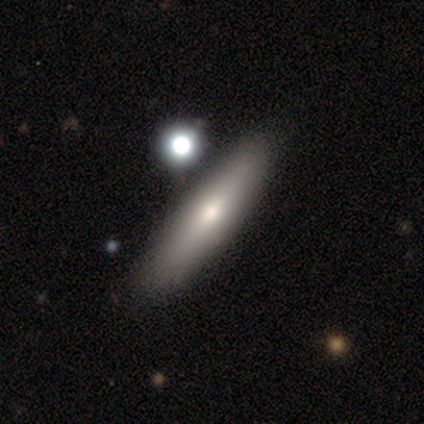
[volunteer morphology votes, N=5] type=smooth (80%); roundness=cigar-shaped (100%); merging=none (50%).